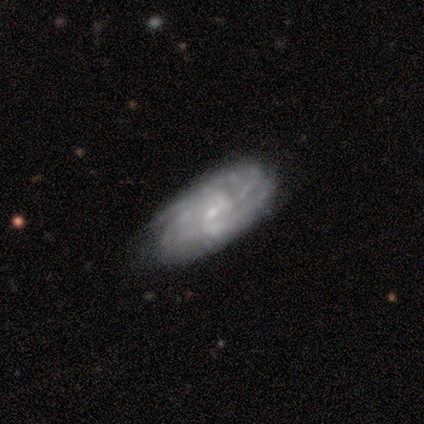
Overall: featured or disk (80%). Edge-on disk: no (100%). Bar: no (100%). Spiral arms: yes (100%). Spiral arm count: can't tell (75%). Spiral winding: tight (50%, tied with loose). Bulge size: small (100%). Merging: none (100%).